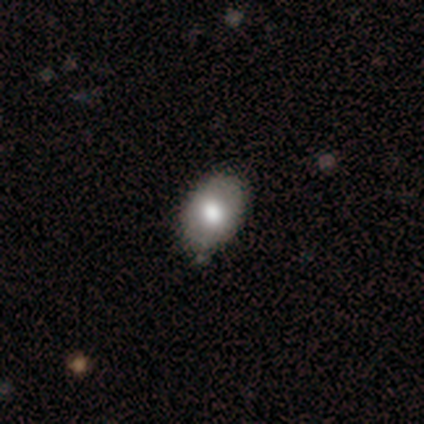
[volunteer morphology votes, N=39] Smooth or featured: smooth — 67% (featured or disk — 33%)
How rounded: in between — 81% (round — 19%)
Merging: none — 69% (minor disturbance — 13%)